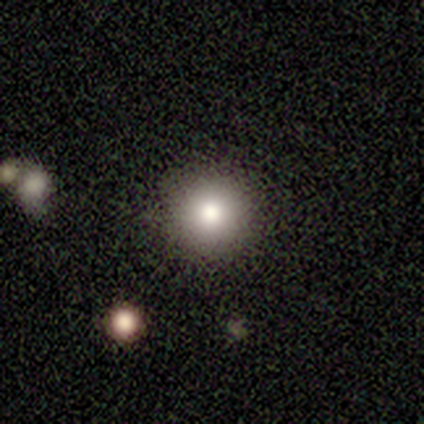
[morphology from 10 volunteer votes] smooth_or_featured: smooth (p=0.70) [alt: featured or disk p=0.20]
how_rounded: round (p=0.86) [alt: cigar-shaped p=0.14]
merging: none (p=0.89) [alt: minor disturbance p=0.11]